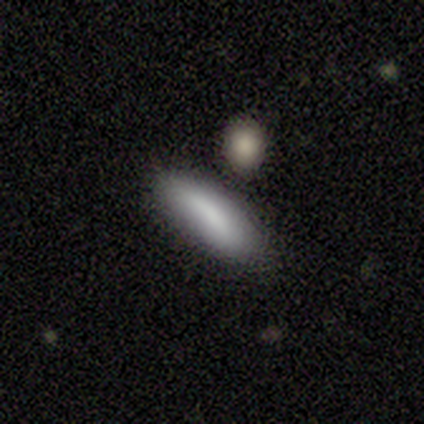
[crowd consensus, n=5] Smooth or featured? 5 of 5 (100%) said smooth. How rounded? 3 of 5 (60%) said in between. Merging? 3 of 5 (60%) said none.